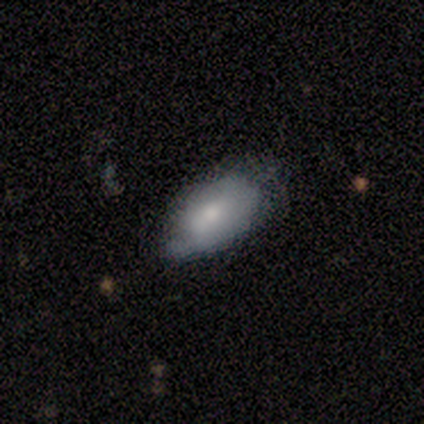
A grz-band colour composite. It shows a smooth galaxy with no disk features (80%) that is in between round and cigar-shaped (100%). Merging: none (60%).